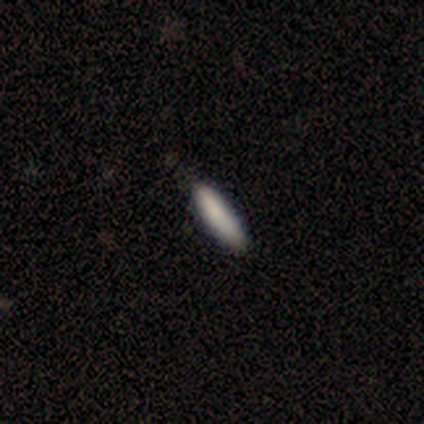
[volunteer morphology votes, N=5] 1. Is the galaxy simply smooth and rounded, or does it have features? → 100% smooth, 0% featured or disk, 0% star or artifact.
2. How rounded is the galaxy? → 80% cigar-shaped, 20% in between, 0% round.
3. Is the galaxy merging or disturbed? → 60% none, 40% minor disturbance, 0% major disturbance, 0% merger.